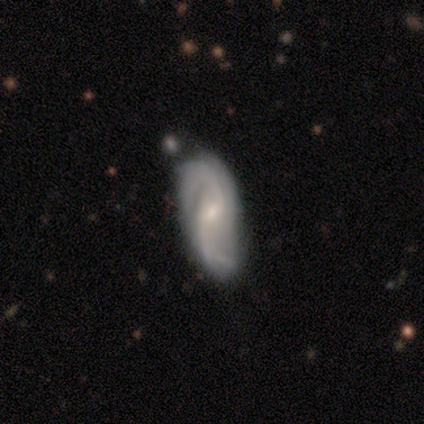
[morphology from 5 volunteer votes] Smooth or featured? 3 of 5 (60%) said smooth. How rounded? 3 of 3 (100%) said in between. Merging? 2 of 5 (40%, tied with minor disturbance) said none.